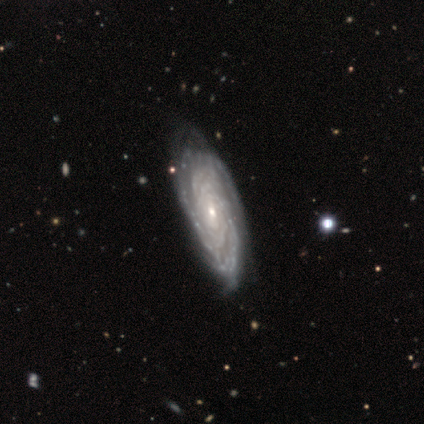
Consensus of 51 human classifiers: Overall: featured or disk (96%). Edge-on disk: no (98%). Bar: no (67%). Spiral arms: yes (100%). Spiral arm count: can't tell (46%; 3 23%). Spiral winding: tight (92%). Bulge size: small (83%). Merging: none (80%).